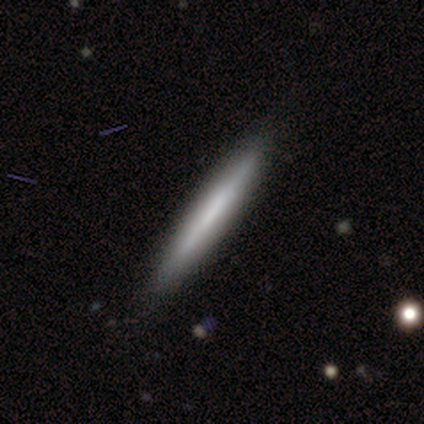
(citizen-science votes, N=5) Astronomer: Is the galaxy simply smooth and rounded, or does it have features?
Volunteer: featured or disk — 80%.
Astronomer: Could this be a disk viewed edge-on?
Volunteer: yes — 100%.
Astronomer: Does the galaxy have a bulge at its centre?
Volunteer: none — 100%.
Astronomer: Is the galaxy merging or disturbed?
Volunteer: none — 60% (runner-up: minor disturbance, 40%).